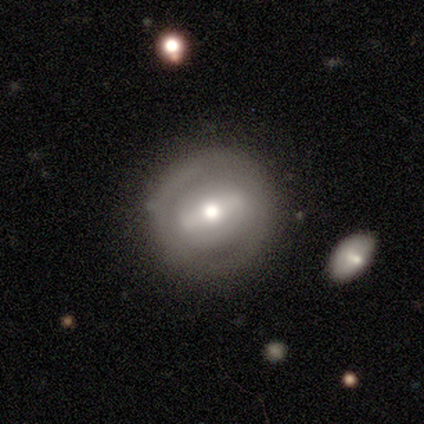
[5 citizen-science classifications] Morphology: type=smooth (40%, tied with featured or disk); roundness=round (100%); merging=none (75%).